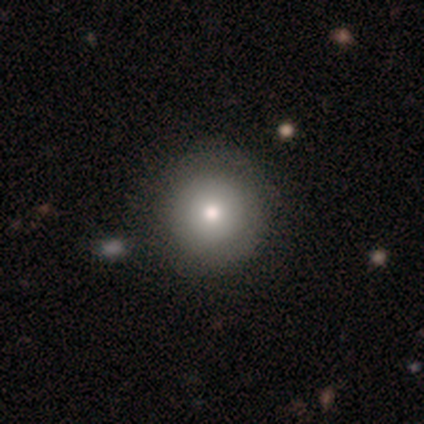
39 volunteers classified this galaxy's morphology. A smooth galaxy with no disk features (72%) that is round (96%). Merging: none (46%).